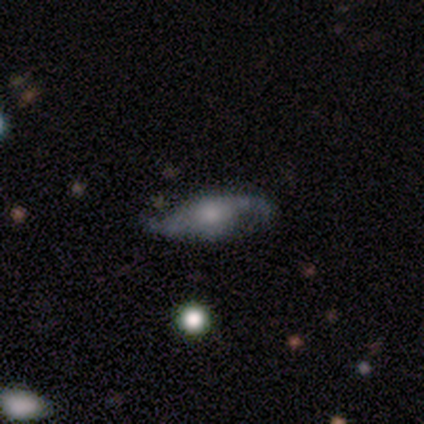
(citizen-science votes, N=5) Smooth or featured?
  - featured or disk: 60% *
  - smooth: 40%
  - star or artifact: 0%
Edge-on disk?
  - no: 100% *
  - yes: 0%
Bar?
  - no: 100% *
  - strong: 0%
  - weak: 0%
Spiral arms?
  - yes: 100% *
  - no: 0%
Spiral winding?
  - loose: 100% *
  - tight: 0%
  - medium: 0%
Spiral arm count?
  - 2: 100% *
  - 1: 0%
  - 3: 0%
  - 4: 0%
  - more than 4: 0%
  - can't tell: 0%
Bulge size?
  - moderate: 100% *
  - dominant: 0%
  - large: 0%
  - small: 0%
  - none: 0%
Merging?
  - none: 40% * (tied)
  - minor disturbance: 40% * (tied)
  - major disturbance: 20%
  - merger: 0%